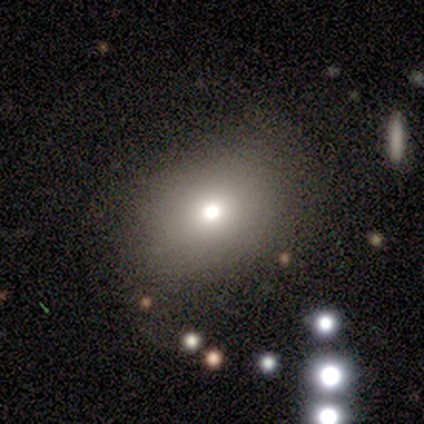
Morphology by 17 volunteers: This appears to be a smooth galaxy with no disk features (59%) that is in between round and cigar-shaped (60%). Merging: none (69%).